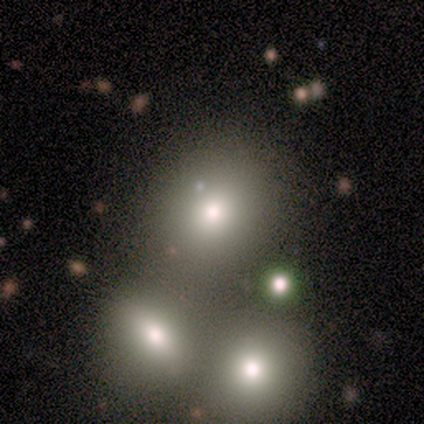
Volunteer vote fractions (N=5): This appears to be a smooth galaxy with no disk features (80%) that is round (75%). Merging: none (75%).